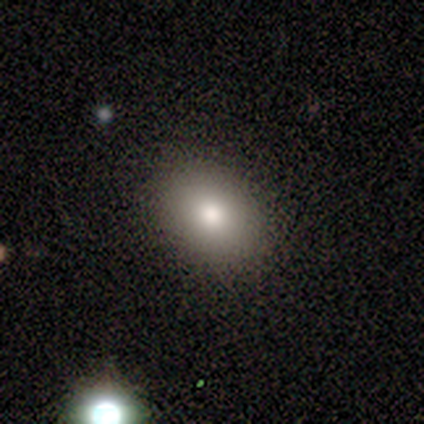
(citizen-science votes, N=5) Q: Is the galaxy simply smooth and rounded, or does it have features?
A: smooth — 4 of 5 (80%).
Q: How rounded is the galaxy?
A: in between — 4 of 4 (100%).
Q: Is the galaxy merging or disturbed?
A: none — 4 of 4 (100%).